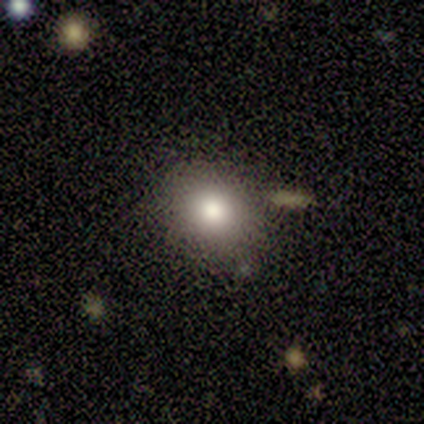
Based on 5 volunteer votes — Smooth or featured?
  - smooth: 60% *
  - featured or disk: 20%
  - star or artifact: 20%
How rounded?
  - round: 67% *
  - in between: 33%
  - cigar-shaped: 0%
Merging?
  - none: 75% *
  - minor disturbance: 25%
  - major disturbance: 0%
  - merger: 0%